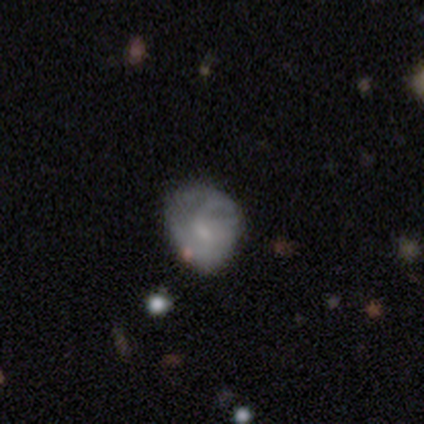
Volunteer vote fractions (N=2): Smooth or featured? 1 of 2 (50%, tied with star or artifact) said featured or disk. Edge-on disk? 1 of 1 (100%) said no. Bar? 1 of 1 (100%) said weak. Spiral arms? 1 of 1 (100%) said no. Bulge size? 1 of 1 (100%) said small. Merging? 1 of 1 (100%) said none.